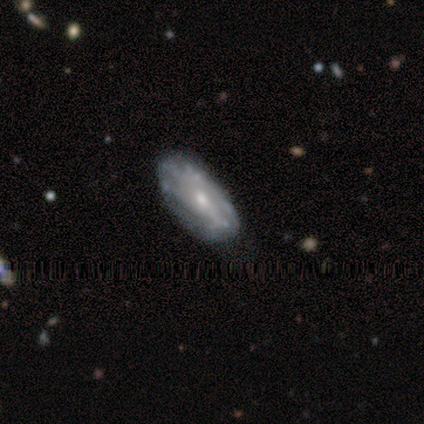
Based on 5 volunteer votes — smooth_or_featured: smooth (p=0.60) [alt: featured or disk p=0.40]
how_rounded: in between (p=1.00)
merging: none (p=0.60) [alt: minor disturbance p=0.40]